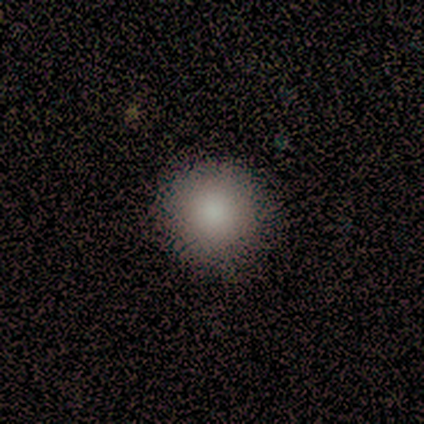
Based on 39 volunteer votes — A smooth galaxy with no disk features (85%) that is round (97%). Merging: none (86%).